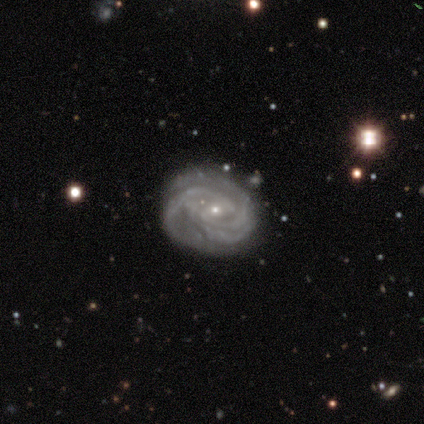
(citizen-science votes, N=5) A featured or disk galaxy (100%) with no bar (60%), 3 (60%) tight (80%) spiral arms (100%) and a small central bulge (80%).

Vote fractions:
- Smooth or featured? featured or disk: 100% / smooth: 0% / star or artifact: 0%
- Edge-on disk? no: 100% / yes: 0%
- Bar? no: 60% / weak: 40% / strong: 0%
- Spiral arms? yes: 100% / no: 0%
- Spiral winding? tight: 80% / medium: 20% / loose: 0%
- Spiral arm count? 3: 60% / can't tell: 40% / 1: 0% / 2: 0% / 4: 0% / more than 4: 0%
- Bulge size? small: 80% / moderate: 20% / dominant: 0% / large: 0% / none: 0%
- Merging? none: 80% / minor disturbance: 20% / major disturbance: 0% / merger: 0%